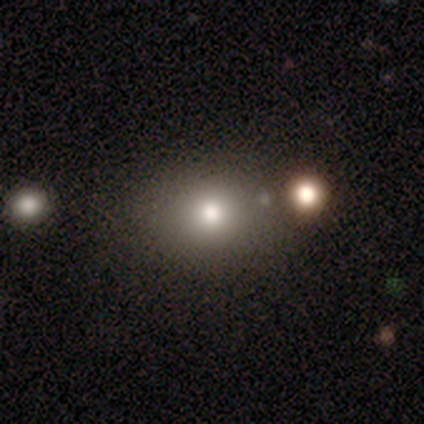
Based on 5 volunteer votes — Smooth or featured? 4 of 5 (80%) said smooth. How rounded? 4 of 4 (100%) said in between. Merging? 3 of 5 (60%) said none.